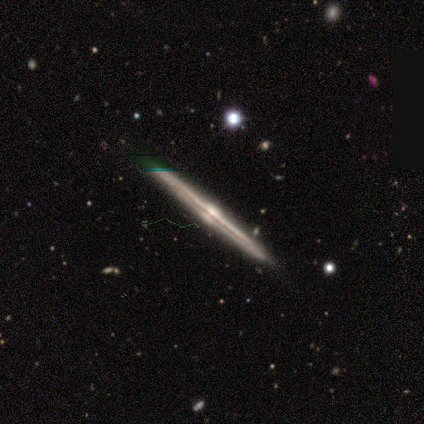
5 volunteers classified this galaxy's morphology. type=featured or disk (100%); edge-on=yes (100%); edge-on bulge=rounded (100%); merging=none (80%).